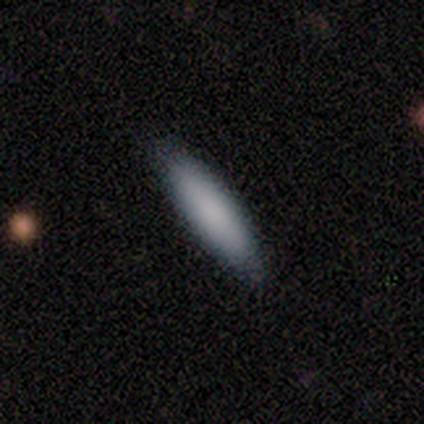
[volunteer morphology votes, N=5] Volunteers were most divided on "merging": none: 60%, minor disturbance: 20%, merger: 20%, major disturbance: 0%. More confident: smooth or featured — smooth (100%); how rounded — cigar-shaped (80%).